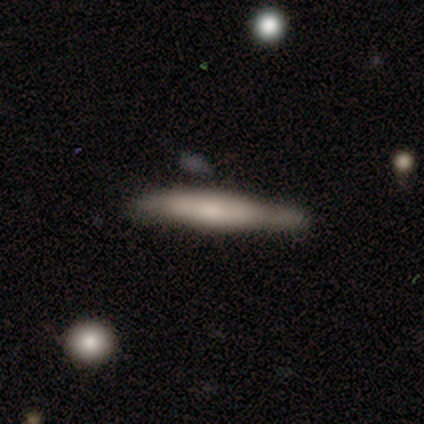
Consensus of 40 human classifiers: smooth_or_featured: smooth (p=0.65) [alt: featured or disk p=0.30]
how_rounded: cigar-shaped (p=1.00)
merging: none (p=0.76) [alt: minor disturbance p=0.16]